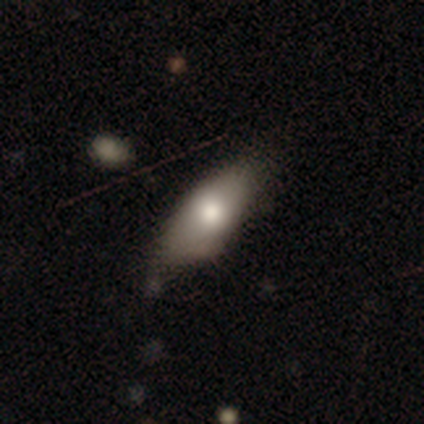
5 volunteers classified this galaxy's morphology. Q: Smooth or featured?
A: smooth (100%)
Q: How rounded?
A: in between (80%); runner-up: cigar-shaped (20%)
Q: Merging?
A: none (60%); runner-up: minor disturbance (40%)